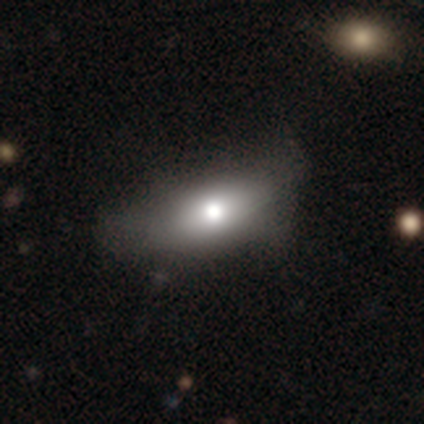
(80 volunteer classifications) smooth_or_featured: smooth (p=0.75) [alt: featured or disk p=0.16]
how_rounded: in between (p=0.83) [alt: cigar-shaped p=0.13]
merging: none (p=0.19) [alt: major disturbance p=0.18]